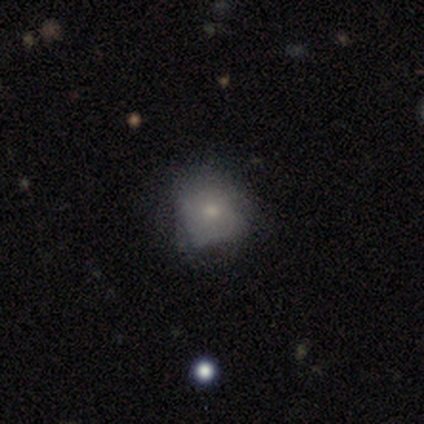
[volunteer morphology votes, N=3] Volunteers were most divided on "smooth or featured" (3-way tie): smooth: 33%, featured or disk: 33%, star or artifact: 33%. More confident: how rounded — round (100%); merging — minor disturbance (100%).